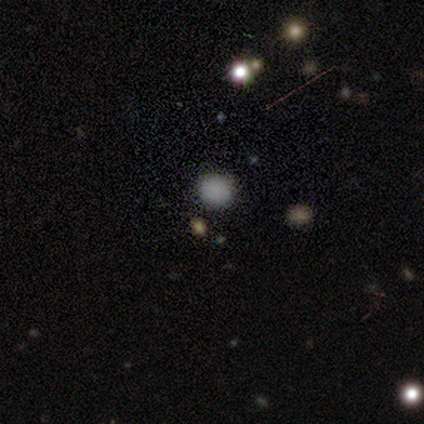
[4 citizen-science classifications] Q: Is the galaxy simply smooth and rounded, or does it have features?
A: smooth — 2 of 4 (50%, tied with star or artifact).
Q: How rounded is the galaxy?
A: round — 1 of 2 (50%, tied with in between).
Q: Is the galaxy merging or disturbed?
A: none — 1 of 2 (50%, tied with merger).